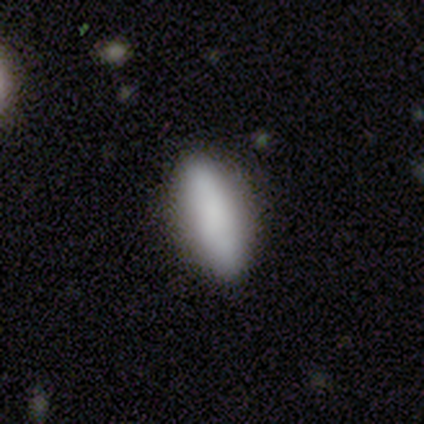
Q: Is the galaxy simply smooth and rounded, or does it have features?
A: smooth — 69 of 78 (88%).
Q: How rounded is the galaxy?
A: in between — 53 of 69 (77%).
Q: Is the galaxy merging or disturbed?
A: none — 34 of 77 (44%).